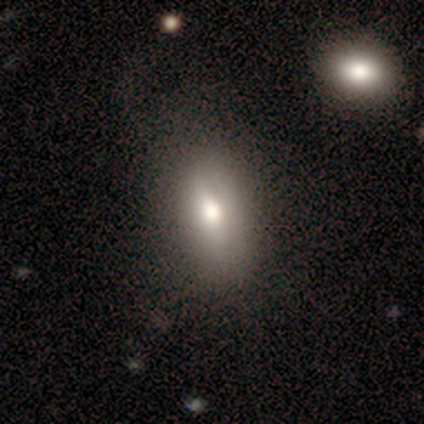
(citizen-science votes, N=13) Volunteers were most divided on "merging": none: 69%, minor disturbance: 23%, merger: 8%, major disturbance: 0%. More confident: how rounded — in between (90%); smooth or featured — smooth (77%).